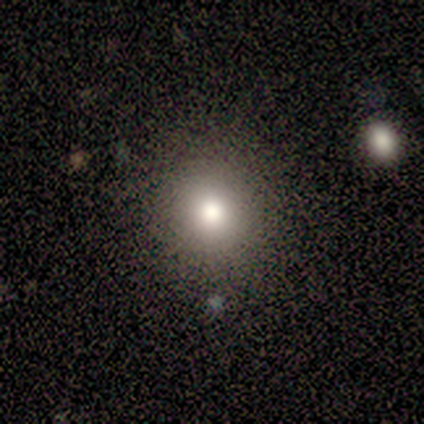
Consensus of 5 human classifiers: Morphology: type=smooth (80%); roundness=round (100%); merging=none (100%).